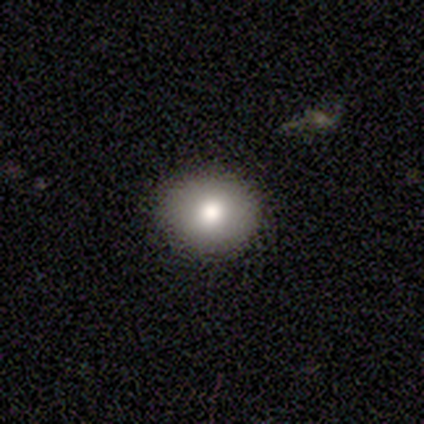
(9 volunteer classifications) This is likely a smooth galaxy (78%). How rounded: likely round (71%). Merging: clearly none (88%).